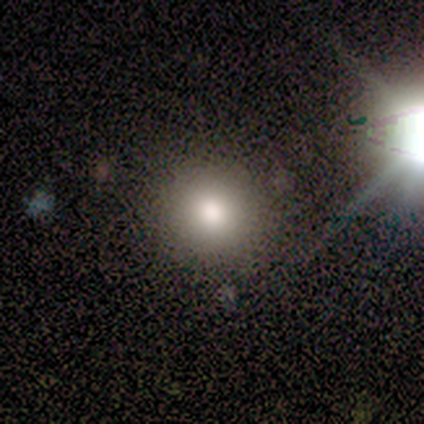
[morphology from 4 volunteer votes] Smooth or featured? smooth (100%)
How rounded? round (100%)
Merging? none (100%)